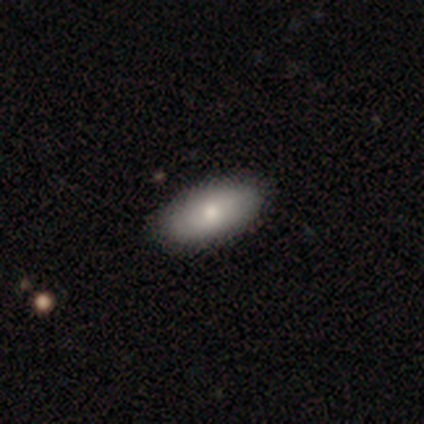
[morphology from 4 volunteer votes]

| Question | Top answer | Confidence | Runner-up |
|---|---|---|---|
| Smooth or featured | smooth | 75% | featured or disk (25%) |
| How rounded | in between | 100% | — |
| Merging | none | 100% | — |